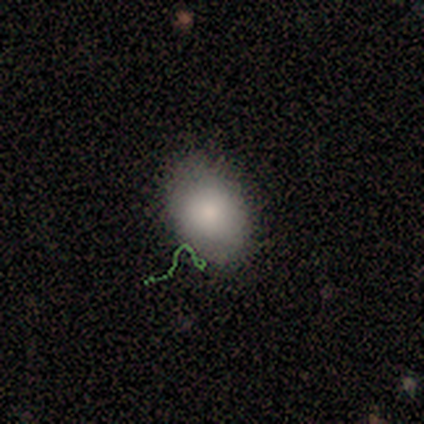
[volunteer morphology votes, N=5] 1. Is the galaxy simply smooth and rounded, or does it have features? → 80% smooth, 20% star or artifact, 0% featured or disk.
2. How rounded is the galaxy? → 100% in between, 0% round, 0% cigar-shaped.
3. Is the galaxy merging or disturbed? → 100% none, 0% minor disturbance, 0% major disturbance, 0% merger.